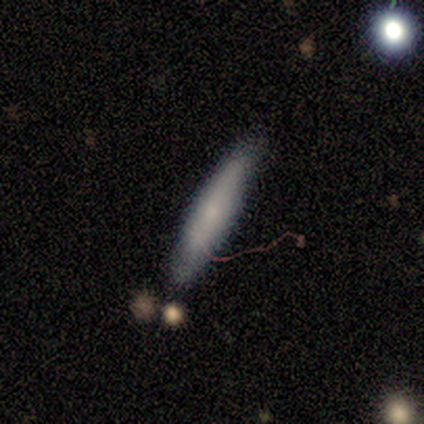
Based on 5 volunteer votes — Morphology: type=smooth (40%, tied with featured or disk); roundness=cigar-shaped (100%); merging=none (75%).